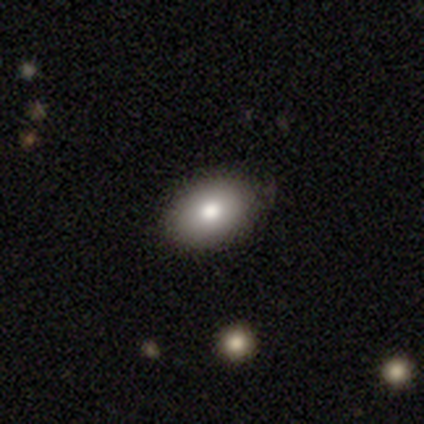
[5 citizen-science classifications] This appears to be a smooth galaxy with no disk features (80%) that is in between round and cigar-shaped (100%). Merging: none (75%).